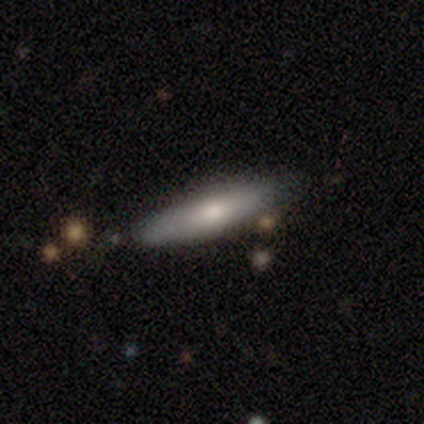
This is likely a smooth galaxy (60%). How rounded: likely cigar-shaped (67%). Merging: clearly none (80%).